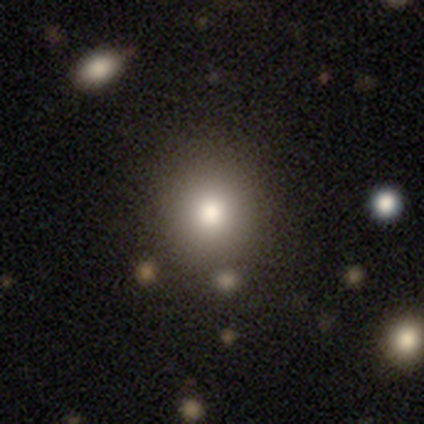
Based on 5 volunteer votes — This is clearly a smooth galaxy (100%). How rounded: clearly round (100%). Merging: clearly none (80%).